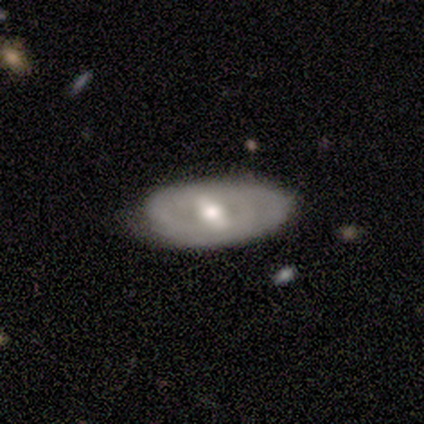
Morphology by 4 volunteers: A featured or disk galaxy (100%) with no bar (67%), 2 (50%, tied with can't tell) tight (50%, tied with loose) spiral arms (67%) and a moderate central bulge (67%). Merging: none (75%).